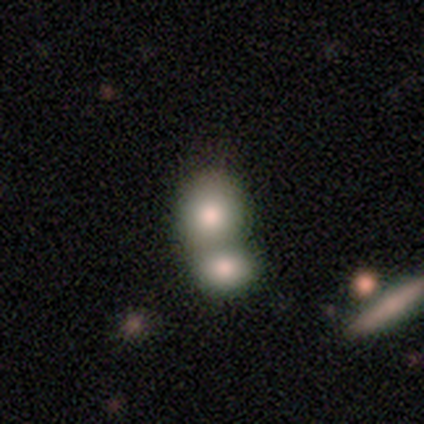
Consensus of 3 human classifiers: Smooth or featured? smooth (67%)
How rounded? round (100%)
Merging? merger (67%)